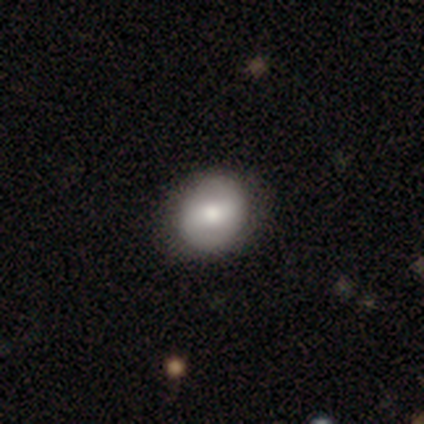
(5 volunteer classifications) smooth-or-featured: smooth: 60% | featured or disk: 40% | star or artifact: 0%
  how-rounded: round: 67% | in between: 33% | cigar-shaped: 0%
  merging: none: 80% | minor disturbance: 20% | major disturbance: 0% | merger: 0%